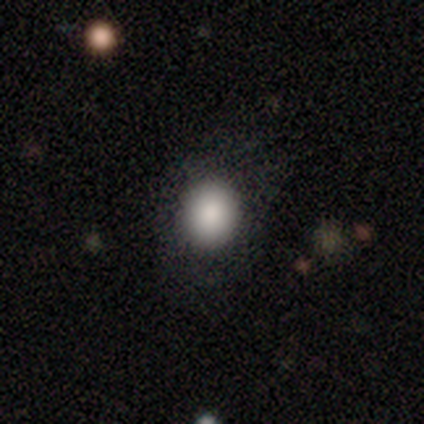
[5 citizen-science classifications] A smooth galaxy with no disk features (80%) that is round (50%, tied with in between). Merging: none (100%).